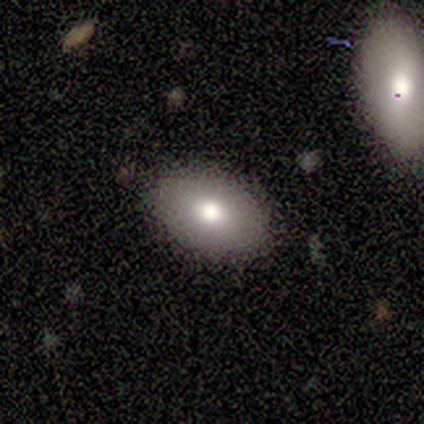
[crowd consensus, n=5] Smooth or featured: smooth — 60% (featured or disk — 40%)
How rounded: in between — 67% (round — 33%)
Merging: none — 100%